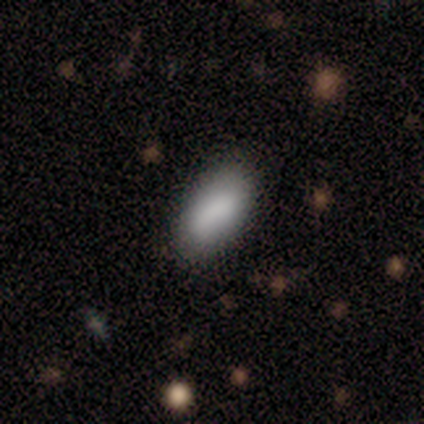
smooth-or-featured: smooth: 88% | featured or disk: 10% | star or artifact: 2%
  how-rounded: in between: 97% | cigar-shaped: 3% | round: 0%
  merging: none: 87% | minor disturbance: 10% | merger: 3% | major disturbance: 0%